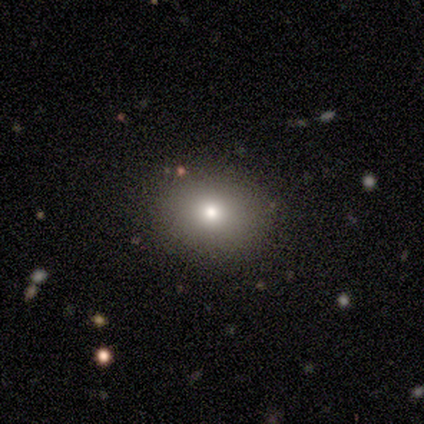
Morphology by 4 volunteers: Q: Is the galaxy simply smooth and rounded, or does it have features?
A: smooth — 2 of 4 (50%).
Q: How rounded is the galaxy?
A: round — 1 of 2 (50%, tied with in between).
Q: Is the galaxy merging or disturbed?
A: none — 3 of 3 (100%).